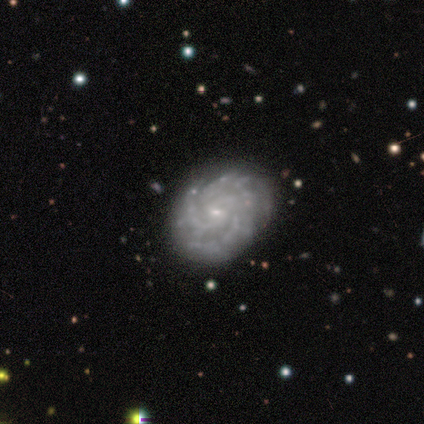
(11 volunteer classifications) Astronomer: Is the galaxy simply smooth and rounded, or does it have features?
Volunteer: featured or disk — 82%.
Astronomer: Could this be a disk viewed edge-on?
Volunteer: no — 100%.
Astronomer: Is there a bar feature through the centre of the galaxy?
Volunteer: no — 56% (runner-up: weak, 44%).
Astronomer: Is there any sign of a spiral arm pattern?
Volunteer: yes — 100%.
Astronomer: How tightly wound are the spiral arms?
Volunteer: tight — 89%.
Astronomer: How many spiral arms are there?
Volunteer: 3 — 56%.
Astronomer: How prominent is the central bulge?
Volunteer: small — 100%.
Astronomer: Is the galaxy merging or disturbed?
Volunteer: none — 90%.